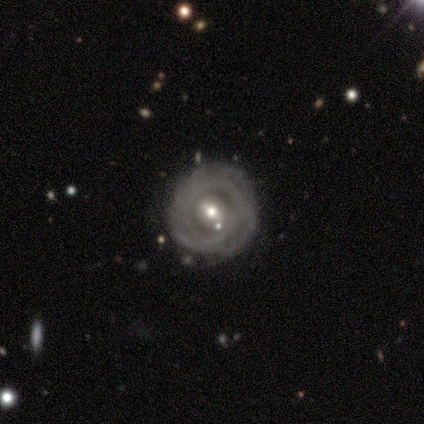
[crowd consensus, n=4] Q: Smooth or featured?
A: featured or disk (75%); runner-up: star or artifact (25%)
Q: Edge-on disk?
A: no (67%); runner-up: yes (33%)
Q: Bar?
A: weak (50%); tied with: no (50%)
Q: Spiral arms?
A: yes (50%); tied with: no (50%)
Q: Spiral winding?
A: tight (100%)
Q: Spiral arm count?
A: can't tell (100%)
Q: Bulge size?
A: small (100%)
Q: Merging?
A: none (67%); runner-up: major disturbance (33%)